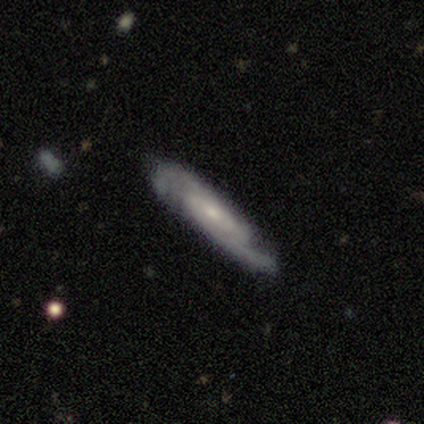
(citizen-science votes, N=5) This appears to be a featured or disk galaxy (80%) with no bar (67%), 2 (100%) medium (67%) spiral arms (100%) and a small central bulge (100%). Merging: none (80%).